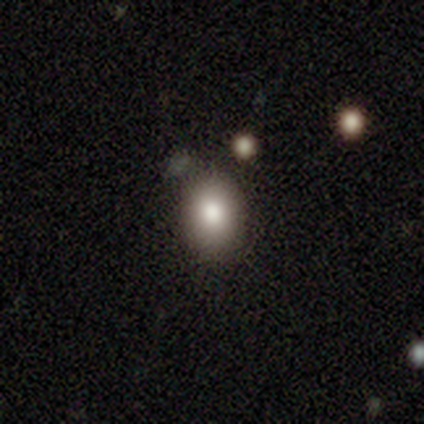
Smooth or featured? 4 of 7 (57%) said star or artifact.